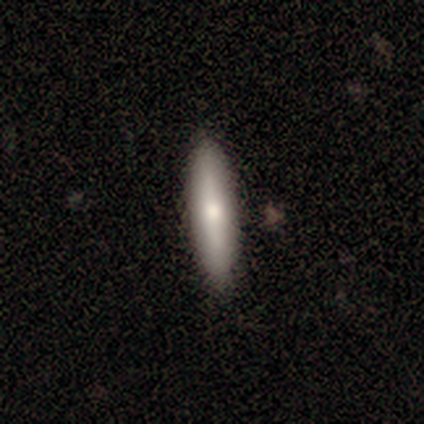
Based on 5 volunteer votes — Overall: smooth (100%). How rounded: cigar-shaped (80%). Merging: none (100%).